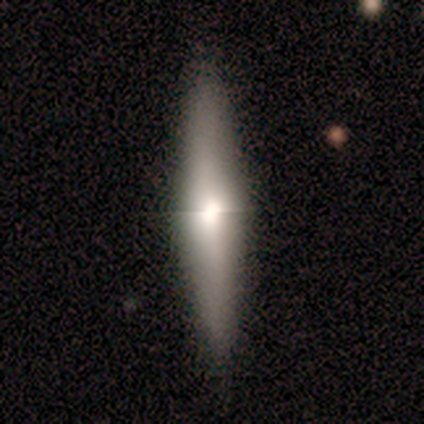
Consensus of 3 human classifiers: Volunteers were most divided on "edge-on bulge" (2-way tie): boxy: 50%, none: 50%, rounded: 0%. More confident: edge-on disk — yes (100%); merging — none (100%); smooth or featured — featured or disk (67%).